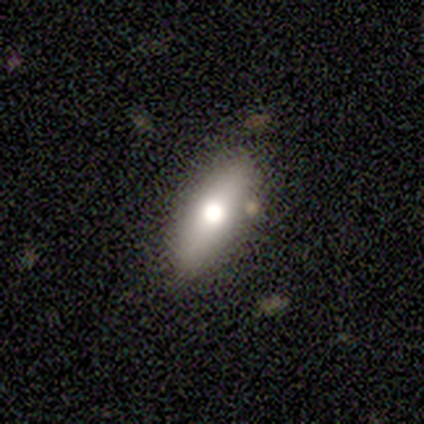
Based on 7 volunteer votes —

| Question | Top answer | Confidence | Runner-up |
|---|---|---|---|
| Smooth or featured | smooth | 71% | star or artifact (29%) |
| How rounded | round | 60% | in between (40%) |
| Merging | none | 100% | — |